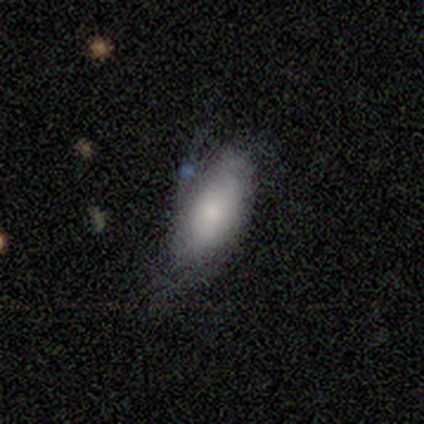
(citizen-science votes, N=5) This appears to be a smooth galaxy with no disk features (100%) that is in between round and cigar-shaped (80%). Merging: none (60%).